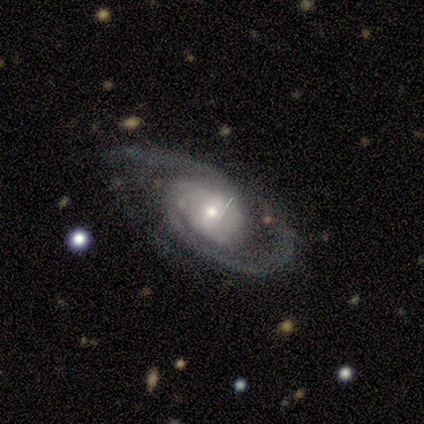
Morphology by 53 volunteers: Smooth or featured?
  - featured or disk: 96% *
  - smooth: 2%
  - star or artifact: 2%
Edge-on disk?
  - no: 100% *
  - yes: 0%
Bar?
  - no: 57% *
  - weak: 33%
  - strong: 10%
Spiral arms?
  - yes: 100% *
  - no: 0%
Spiral winding?
  - tight: 51% *
  - medium: 39%
  - loose: 10%
Spiral arm count?
  - 2: 86% *
  - 3: 8%
  - can't tell: 4%
  - more than 4: 2%
  - 1: 0%
  - 4: 0%
Bulge size?
  - moderate: 49% *
  - small: 45%
  - large: 4%
  - dominant: 2%
  - none: 0%
Merging?
  - none: 77% *
  - minor disturbance: 13%
  - major disturbance: 6%
  - merger: 4%